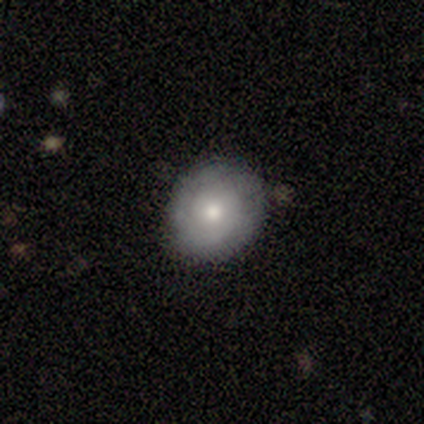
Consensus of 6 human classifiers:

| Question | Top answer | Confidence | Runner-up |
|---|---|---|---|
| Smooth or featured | smooth | 67% | featured or disk (33%) |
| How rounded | round | 100% | — |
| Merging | none | 83% | minor disturbance (17%) |